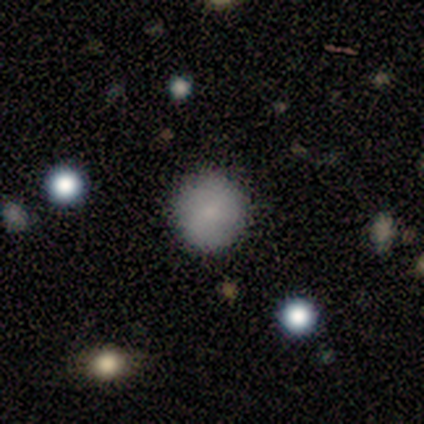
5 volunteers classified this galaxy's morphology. smooth 100%, featured or disk 0%, star or artifact 0%. Down the decision tree: how rounded — round (100%); merging — none (100%).